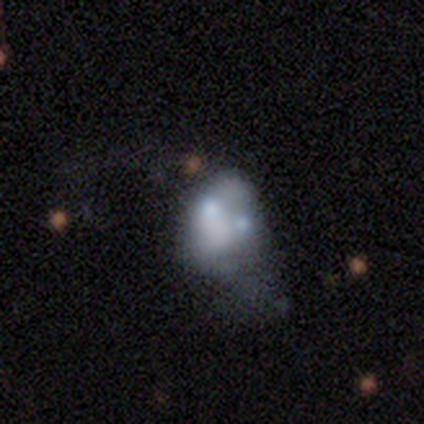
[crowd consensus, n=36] Smooth or featured: featured or disk — 53% (smooth — 33%)
Edge-on disk: no — 100%
Bar: no — 100%
Spiral arms: no — 89% (yes — 11%)
Bulge size: none — 53% (moderate — 26%)
Merging: merger — 48% (major disturbance — 35%)